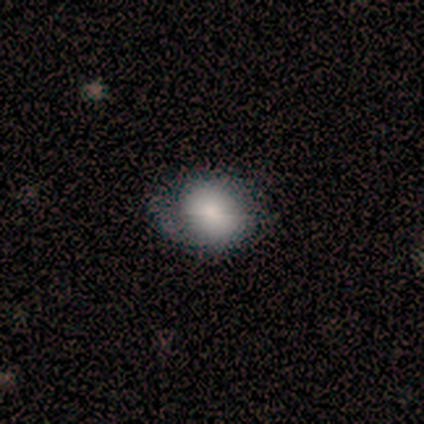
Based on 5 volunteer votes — Morphology: type=smooth (60%); roundness=in between (67%); merging=none (75%).